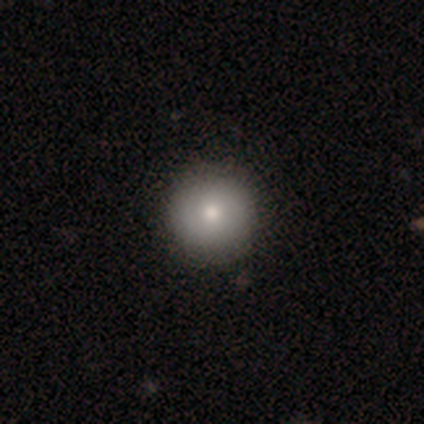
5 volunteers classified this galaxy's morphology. smooth-or-featured: smooth: 80% | featured or disk: 20% | star or artifact: 0%
  how-rounded: round: 100% | in between: 0% | cigar-shaped: 0%
  merging: none: 100% | minor disturbance: 0% | major disturbance: 0% | merger: 0%